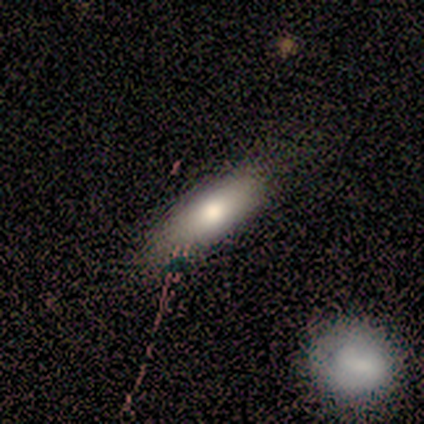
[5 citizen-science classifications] Smooth or featured? smooth (100%)
How rounded? in between (60%)
Merging? none (80%)